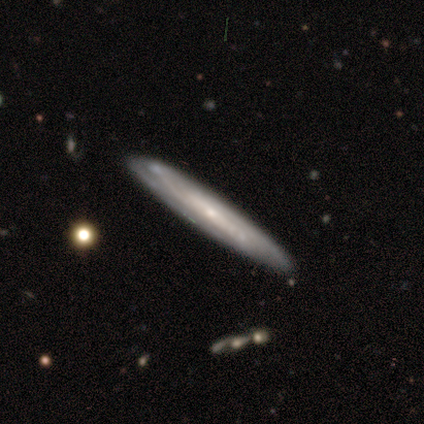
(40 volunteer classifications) This is likely a featured or disk galaxy (70%). It is likely viewed edge-on (71%). Edge-on bulge: likely none (60%). Merging: clearly none (85%).